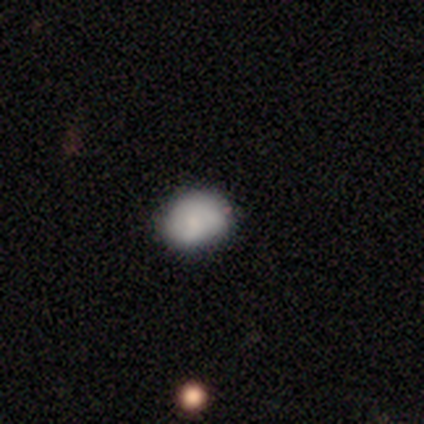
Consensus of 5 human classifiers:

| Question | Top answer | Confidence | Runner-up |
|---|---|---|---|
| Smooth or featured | smooth | 60% | featured or disk (40%) |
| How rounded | round | 100% | — |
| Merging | none | 80% | minor disturbance (20%) |